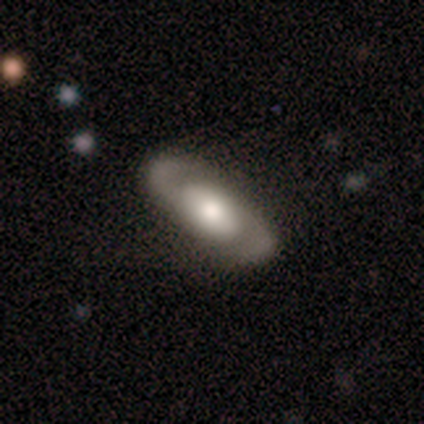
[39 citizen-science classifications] This appears to be a featured or disk galaxy (77%) with no bar (81%), 2 (96%) medium (58%) spiral arms (89%) and a moderate central bulge (63%). Merging: none (62%).